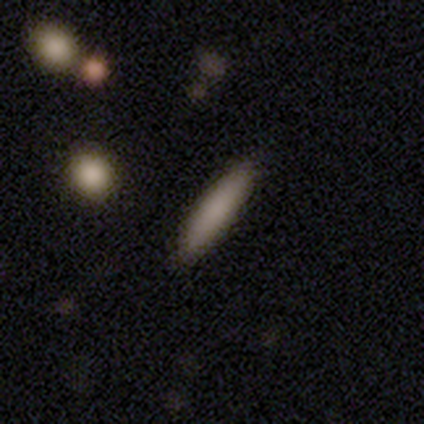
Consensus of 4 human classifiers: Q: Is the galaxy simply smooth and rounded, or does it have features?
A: smooth — 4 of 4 (100%).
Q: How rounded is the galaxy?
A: cigar-shaped — 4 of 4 (100%).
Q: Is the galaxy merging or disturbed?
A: none — 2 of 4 (50%).